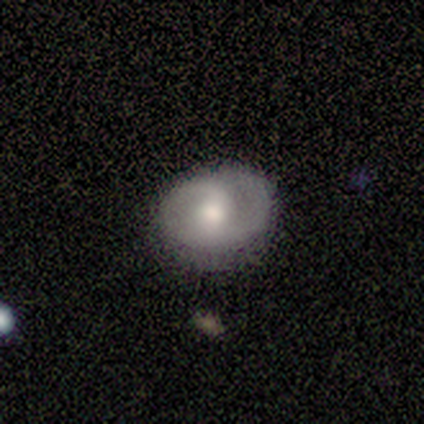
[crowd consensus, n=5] A featured or disk galaxy (60%) with a weak bar (67%), 1 (67%) medium (67%) spiral arms (100%) and a moderate central bulge (67%). Merging: none (100%).